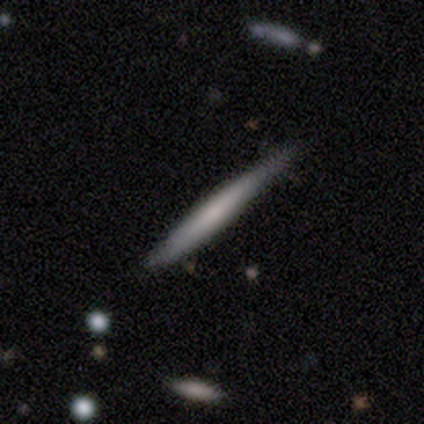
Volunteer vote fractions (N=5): smooth-or-featured: smooth: 40% (tied) | featured or disk: 40% (tied) | star or artifact: 20%
  how-rounded: cigar-shaped: 100% | round: 0% | in between: 0%
  merging: none: 75% | minor disturbance: 25% | major disturbance: 0% | merger: 0%